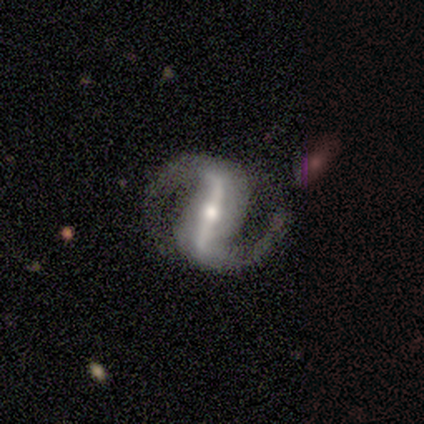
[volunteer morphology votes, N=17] Smooth or featured? 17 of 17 (100%) said featured or disk. Edge-on disk? 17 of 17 (100%) said no. Bar? 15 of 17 (88%) said strong. Spiral arms? 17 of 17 (100%) said yes. Spiral winding? 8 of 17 (47%) said medium. Spiral arm count? 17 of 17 (100%) said 2. Bulge size? 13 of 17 (76%) said moderate. Merging? 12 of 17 (71%) said none.